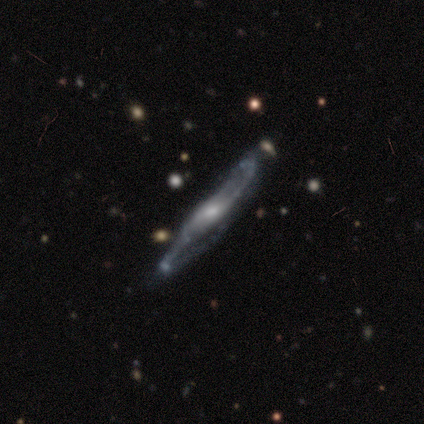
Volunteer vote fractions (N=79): Smooth or featured?
  - featured or disk: 97% *
  - star or artifact: 3%
  - smooth: 0%
Edge-on disk?
  - no: 52% *
  - yes: 48%
Bar?
  - weak: 52% *
  - no: 45%
  - strong: 2%
Spiral arms?
  - yes: 98% *
  - no: 2%
Spiral winding?
  - loose: 59% *
  - medium: 36%
  - tight: 5%
Spiral arm count?
  - 2: 90% *
  - can't tell: 10%
  - 1: 0%
  - 3: 0%
  - 4: 0%
  - more than 4: 0%
Bulge size?
  - moderate: 57% *
  - small: 38%
  - dominant: 2%
  - none: 2%
  - large: 0%
Merging?
  - none: 45% *
  - minor disturbance: 6%
  - merger: 6%
  - major disturbance: 4%